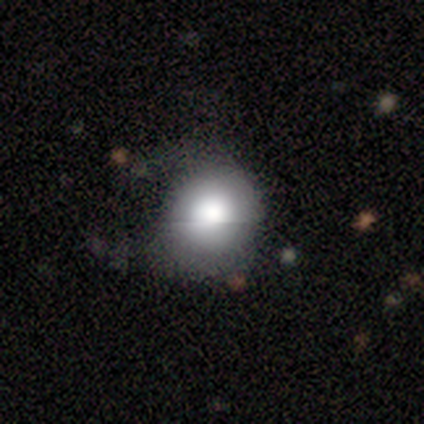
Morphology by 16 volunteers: type=smooth (81%); roundness=round (85%); merging=none (62%).